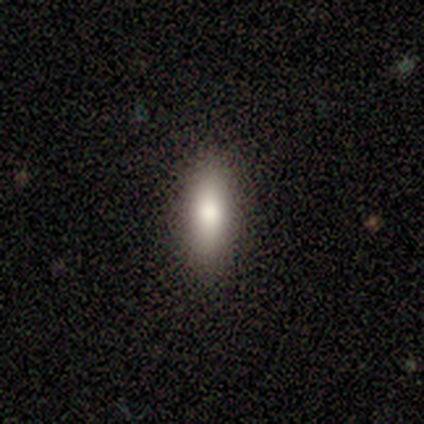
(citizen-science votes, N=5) smooth 100%, featured or disk 0%, star or artifact 0%. Down the decision tree: how rounded — cigar-shaped (80%); merging — none (80%).